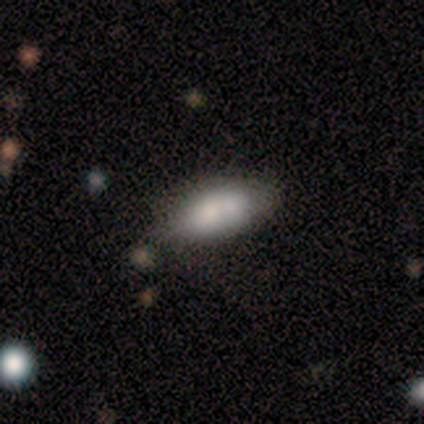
smooth-or-featured: smooth: 67% | featured or disk: 33% | star or artifact: 0%
  how-rounded: in between: 100% | round: 0% | cigar-shaped: 0%
  merging: none: 67% | minor disturbance: 17% | merger: 17% | major disturbance: 0%